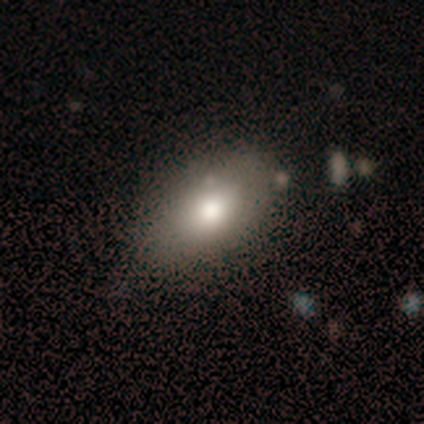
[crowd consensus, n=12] Smooth or featured? 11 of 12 (92%) said smooth. How rounded? 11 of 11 (100%) said in between. Merging? 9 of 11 (82%) said none.